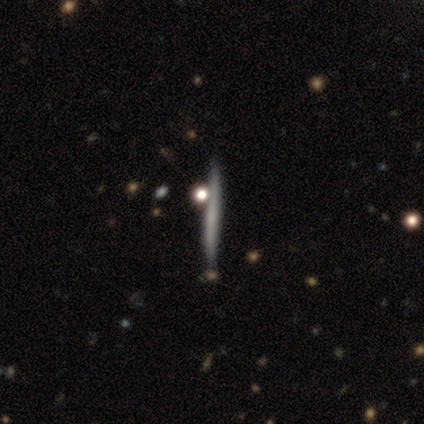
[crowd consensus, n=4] smooth-or-featured: featured or disk: 100% | smooth: 0% | star or artifact: 0%
  disk-edge-on: yes: 100% | no: 0%
    edge-on-bulge: none: 75% | rounded: 25% | boxy: 0%
  merging: none: 50% | minor disturbance: 25% | merger: 25% | major disturbance: 0%